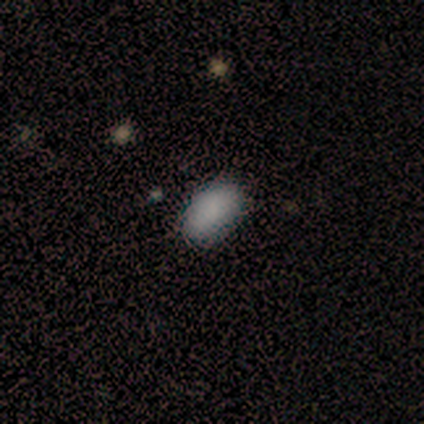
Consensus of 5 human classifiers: smooth 80%, star or artifact 20%, featured or disk 0%. Down the decision tree: how rounded — in between (100%); merging — none (75%).